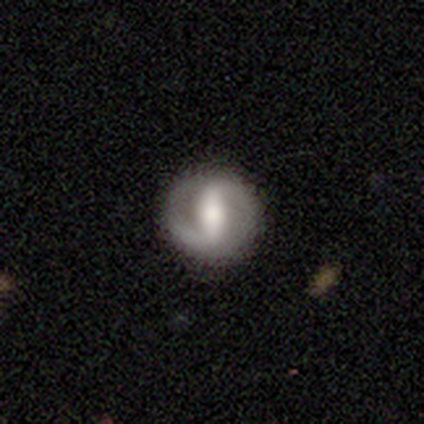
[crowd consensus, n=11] Q: Smooth or featured?
A: featured or disk (64%); runner-up: smooth (27%)
Q: Edge-on disk?
A: no (100%)
Q: Bar?
A: strong (86%); runner-up: weak (14%)
Q: Spiral arms?
A: yes (86%); runner-up: no (14%)
Q: Spiral winding?
A: tight (33%); tied with: medium (33%); loose (33%)
Q: Spiral arm count?
A: 2 (100%)
Q: Bulge size?
A: moderate (86%); runner-up: large (14%)
Q: Merging?
A: none (100%)